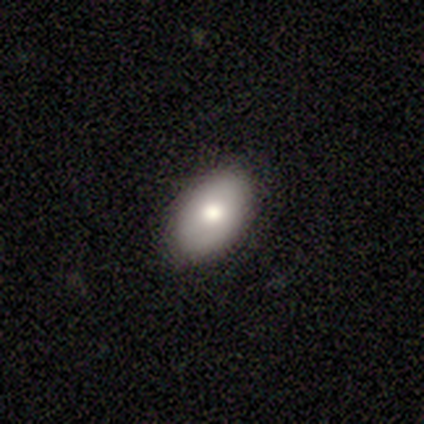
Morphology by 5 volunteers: Volunteers were most divided on "merging": none: 80%, minor disturbance: 20%, major disturbance: 0%, merger: 0%. More confident: smooth or featured — smooth (100%); how rounded — in between (100%).